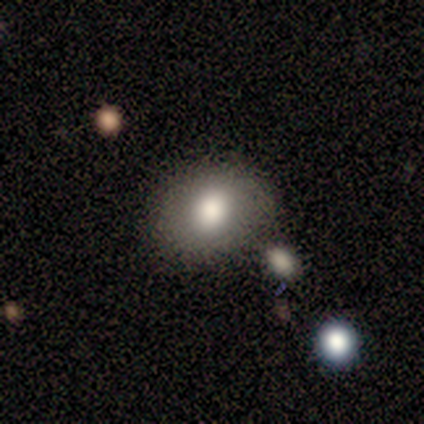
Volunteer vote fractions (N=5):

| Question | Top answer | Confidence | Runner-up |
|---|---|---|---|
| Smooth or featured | smooth | 60% | featured or disk (20%) |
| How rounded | round | 67% | in between (33%) |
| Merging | none | 100% | — |